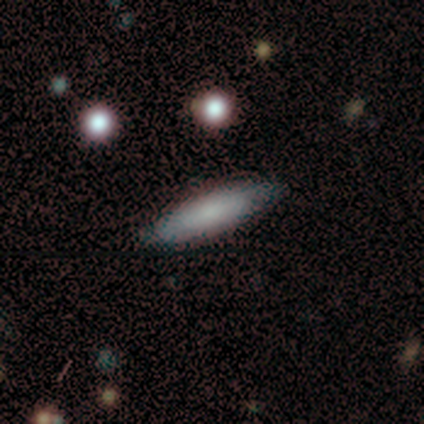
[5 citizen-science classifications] Smooth or featured? smooth (80%)
How rounded? cigar-shaped (100%)
Merging? none (80%)